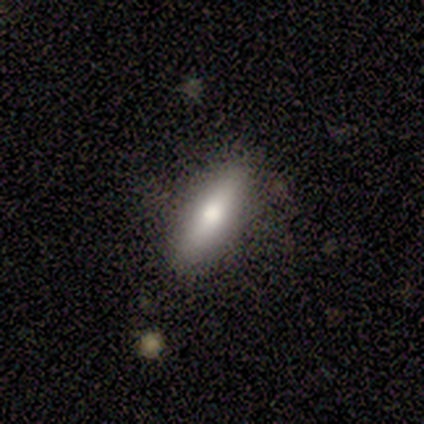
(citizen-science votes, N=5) star or artifact 60%, smooth 40%, featured or disk 0%.